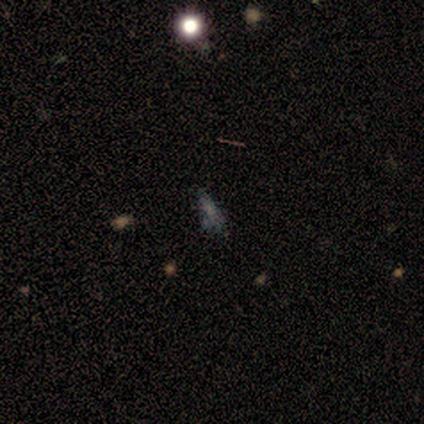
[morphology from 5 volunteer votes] Volunteers were most divided on "smooth or featured": star or artifact: 60%, smooth: 20%, featured or disk: 20%.